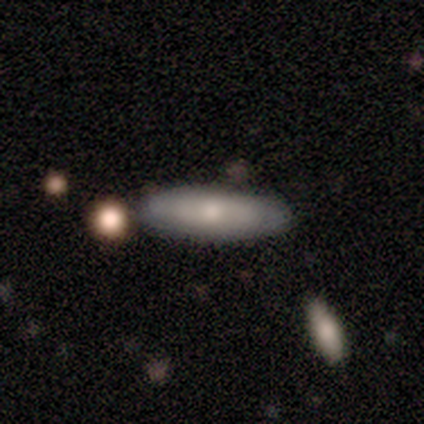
smooth-or-featured: smooth: 50% | featured or disk: 40% | star or artifact: 10%
  how-rounded: cigar-shaped: 60% | in between: 40% | round: 0%
  merging: none: 89% | minor disturbance: 11% | major disturbance: 0% | merger: 0%